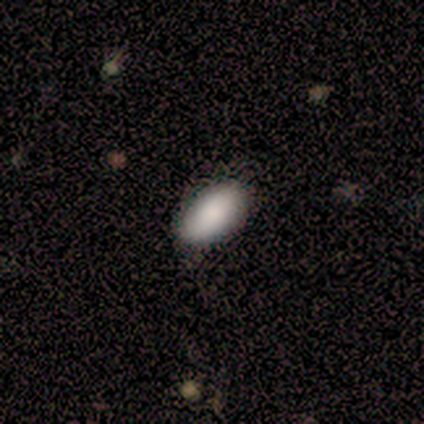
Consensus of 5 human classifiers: Volunteers were most divided on "smooth or featured": smooth: 60%, featured or disk: 20%, star or artifact: 20%. More confident: how rounded — in between (100%); merging — minor disturbance (75%).